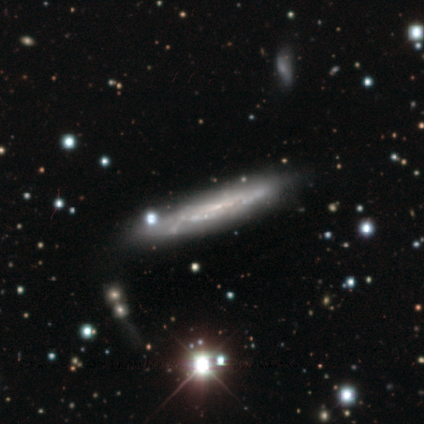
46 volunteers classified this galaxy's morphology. Smooth or featured? featured or disk (72%)
Edge-on disk? yes (61%)
Edge-on bulge? none (95%)
Merging? none (68%)